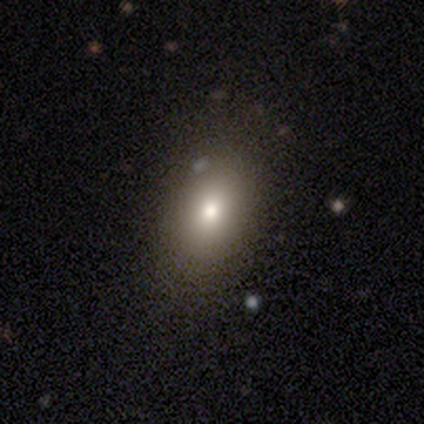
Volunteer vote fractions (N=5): Smooth or featured: smooth — 40% (tied with star or artifact — 40%)
How rounded: round — 50% (tied with in between — 50%)
Merging: minor disturbance — 67% (none — 33%)